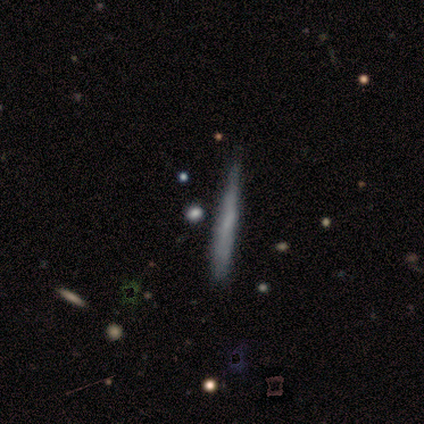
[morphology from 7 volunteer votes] smooth 57%, featured or disk 43%, star or artifact 0%. Down the decision tree: how rounded — cigar-shaped (100%); merging — none (100%).